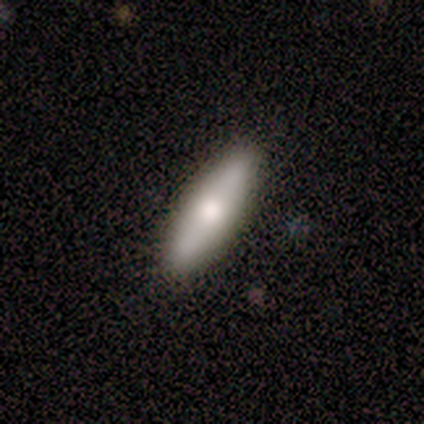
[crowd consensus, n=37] This is possibly a smooth galaxy (59%). How rounded: possibly in between (50%). Merging: clearly none (86%).